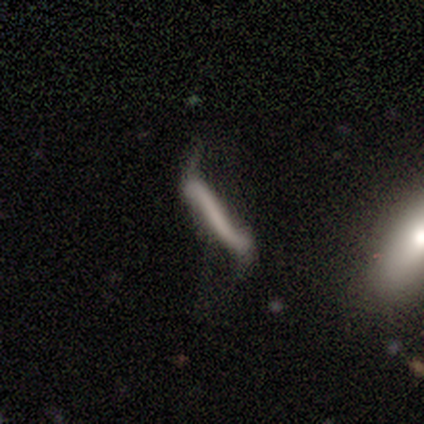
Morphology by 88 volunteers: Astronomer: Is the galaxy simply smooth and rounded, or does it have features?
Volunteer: smooth — 43% (runner-up: featured or disk, 42%).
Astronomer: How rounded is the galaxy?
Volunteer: cigar-shaped — 92%.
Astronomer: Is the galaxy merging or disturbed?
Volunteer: major disturbance — 35% (runner-up: none, 28%).